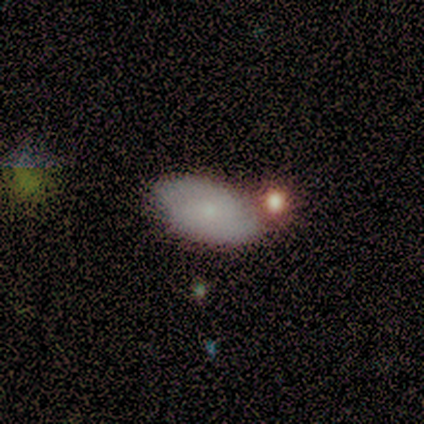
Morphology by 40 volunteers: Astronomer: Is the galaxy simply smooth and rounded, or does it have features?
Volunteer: smooth — 65%.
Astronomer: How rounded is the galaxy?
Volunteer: in between — 96%.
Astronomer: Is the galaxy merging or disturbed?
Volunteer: none — 58%.